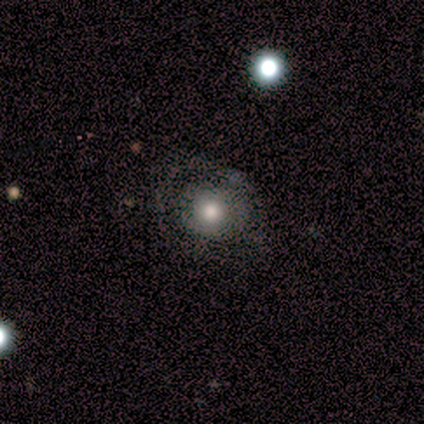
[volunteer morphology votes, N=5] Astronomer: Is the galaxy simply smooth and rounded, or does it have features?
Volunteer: featured or disk — 60% (runner-up: smooth, 40%).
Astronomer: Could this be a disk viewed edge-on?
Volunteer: no — 100%.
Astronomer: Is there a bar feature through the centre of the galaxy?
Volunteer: no — 100%.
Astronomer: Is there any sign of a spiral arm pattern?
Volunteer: yes — 67%.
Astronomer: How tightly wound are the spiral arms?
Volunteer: tight — 100%.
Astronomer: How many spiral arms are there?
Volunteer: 1 — 50%, tied with can't tell at 50%.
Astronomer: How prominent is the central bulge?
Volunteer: moderate — 100%.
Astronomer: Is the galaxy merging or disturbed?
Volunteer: none — 60% (runner-up: minor disturbance, 40%).